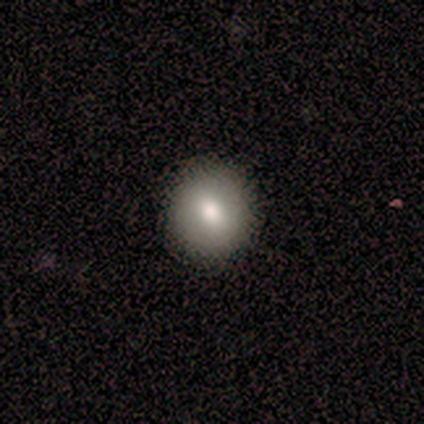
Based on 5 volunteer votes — A smooth galaxy with no disk features (100%) that is round (80%).

Vote fractions:
- Smooth or featured? smooth: 100% / featured or disk: 0% / star or artifact: 0%
- How rounded? round: 80% / in between: 20% / cigar-shaped: 0%
- Merging? none: 60% / minor disturbance: 20% / major disturbance: 20% / merger: 0%